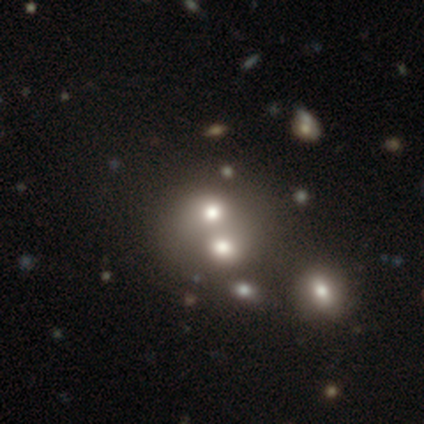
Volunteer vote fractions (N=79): smooth_or_featured: smooth (p=0.61) [alt: featured or disk p=0.24]
how_rounded: round (p=0.56) [alt: in between p=0.42]
merging: merger (p=0.67) [alt: none p=0.06]